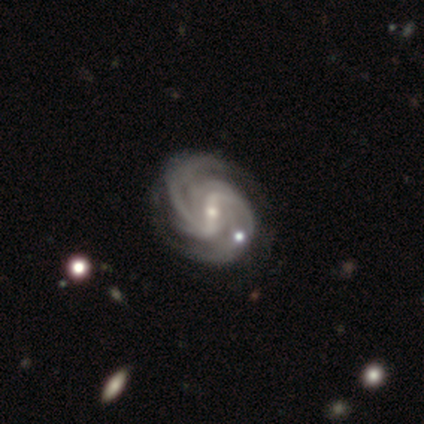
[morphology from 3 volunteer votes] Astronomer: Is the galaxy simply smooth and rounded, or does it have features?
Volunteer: featured or disk — 100%.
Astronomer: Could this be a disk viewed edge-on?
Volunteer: no — 100%.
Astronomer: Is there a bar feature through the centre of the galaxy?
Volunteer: weak — 67%.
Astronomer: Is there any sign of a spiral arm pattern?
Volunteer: yes — 100%.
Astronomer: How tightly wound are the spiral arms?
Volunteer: tight — 100%.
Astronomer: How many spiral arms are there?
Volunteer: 2 — 33%, tied with more than 4 and can't tell at 33%.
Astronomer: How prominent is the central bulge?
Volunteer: small — 100%.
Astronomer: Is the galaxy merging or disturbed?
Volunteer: none — 100%.